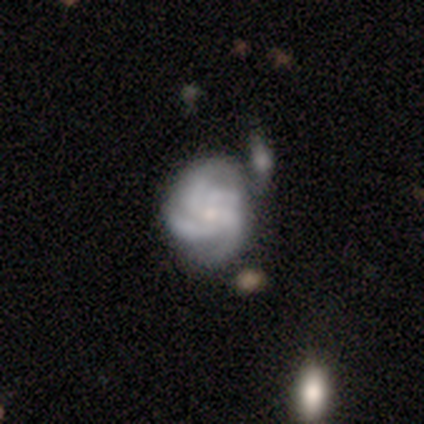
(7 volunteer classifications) Smooth or featured? 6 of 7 (86%) said featured or disk. Edge-on disk? 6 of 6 (100%) said no. Bar? 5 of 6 (83%) said no. Spiral arms? 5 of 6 (83%) said yes. Spiral winding? 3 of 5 (60%) said medium. Spiral arm count? 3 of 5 (60%) said 4. Bulge size? 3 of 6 (50%) said small. Merging? 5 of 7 (71%) said none.